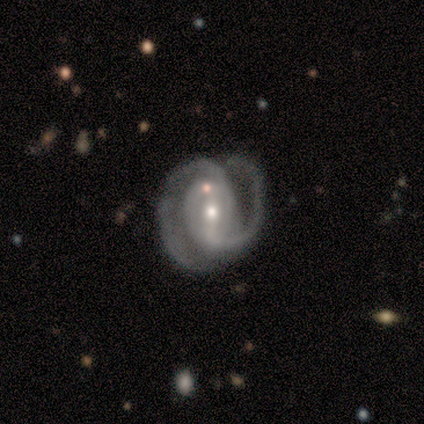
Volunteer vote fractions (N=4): smooth-or-featured: featured or disk: 100% | smooth: 0% | star or artifact: 0%
  disk-edge-on: no: 100% | yes: 0%
    bar: strong: 50% (tied) | no: 50% (tied) | weak: 0%
    has-spiral-arms: yes: 100% | no: 0%
      spiral-winding: medium: 50% | tight: 25% | loose: 25%
      spiral-arm-count: 2: 75% | 3: 25% | 1: 0% | 4: 0% | more than 4: 0% | can't tell: 0%
    bulge-size: moderate: 50% (tied) | small: 50% (tied) | dominant: 0% | large: 0% | none: 0%
  merging: none: 50% (tied) | minor disturbance: 50% (tied) | major disturbance: 0% | merger: 0%